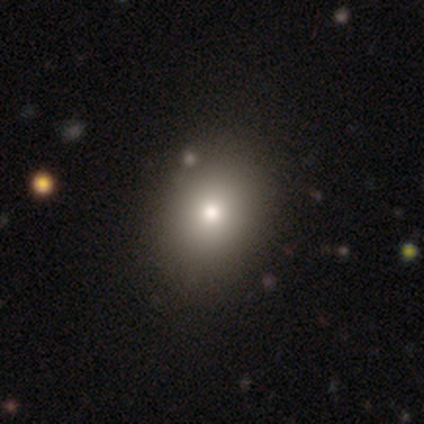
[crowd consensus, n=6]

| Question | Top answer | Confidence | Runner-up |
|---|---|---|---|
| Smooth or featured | smooth | 50% | star or artifact (33%) |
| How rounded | in between | 67% | round (33%) |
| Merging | none | 100% | — |